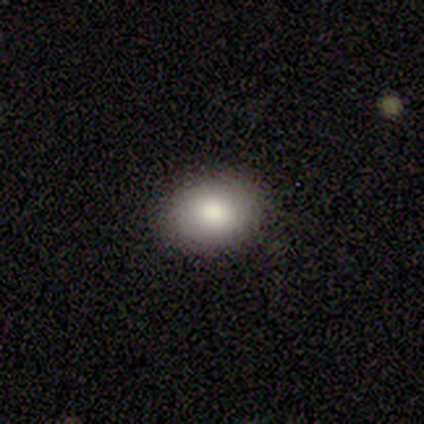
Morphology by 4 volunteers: Smooth or featured? 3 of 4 (75%) said smooth. How rounded? 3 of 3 (100%) said in between. Merging? 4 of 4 (100%) said none.